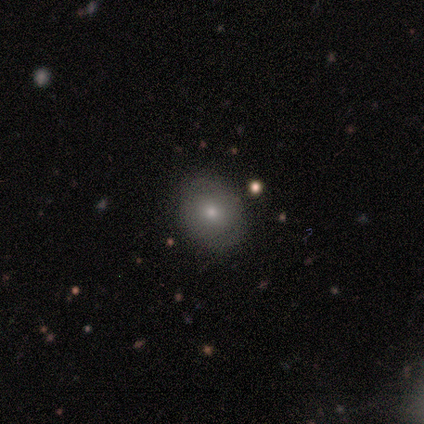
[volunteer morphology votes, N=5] A smooth galaxy with no disk features (60%) that is round (100%). Merging: none (80%).